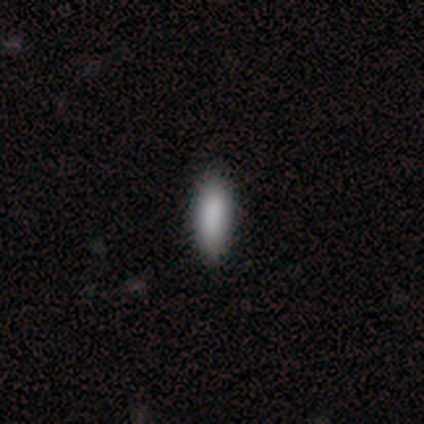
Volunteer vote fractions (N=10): A smooth galaxy with no disk features (100%) that is in between round and cigar-shaped (50%, tied with cigar-shaped). Merging: none (90%).